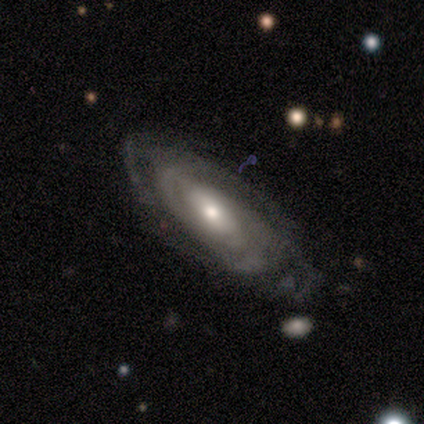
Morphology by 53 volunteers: A featured or disk galaxy (89%) with no bar (42%), tight (71%) spiral arms (91%) and a moderate central bulge (67%).

Vote fractions:
- Smooth or featured? featured or disk: 89% / smooth: 8% / star or artifact: 4%
- Edge-on disk? no: 96% / yes: 4%
- Bar? no: 42% / weak: 31% / strong: 27%
- Spiral arms? yes: 91% / no: 9%
- Spiral winding? tight: 71% / medium: 22% / loose: 7%
- Spiral arm count? can't tell: 51% / 2: 22% / 3: 17% / 4: 7% / 1: 2% / more than 4: 0%
- Bulge size? moderate: 67% / small: 29% / large: 4% / dominant: 0% / none: 0%
- Merging? none: 61% / minor disturbance: 33% / major disturbance: 6% / merger: 0%